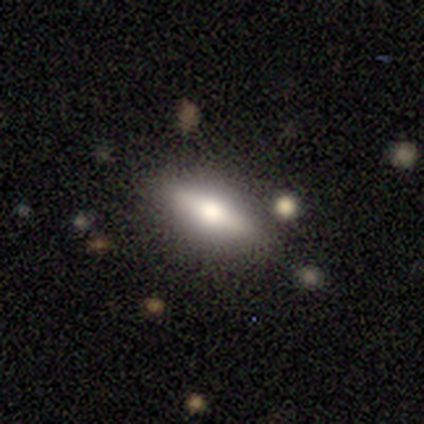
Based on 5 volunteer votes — A featured or disk galaxy (60%) viewed edge-on (100%) with a rounded central bulge (100%).

Vote fractions:
- Smooth or featured? featured or disk: 60% / smooth: 40% / star or artifact: 0%
- Edge-on disk? yes: 100% / no: 0%
- Edge-on bulge? rounded: 100% / boxy: 0% / none: 0%
- Merging? none: 80% / merger: 20% / minor disturbance: 0% / major disturbance: 0%